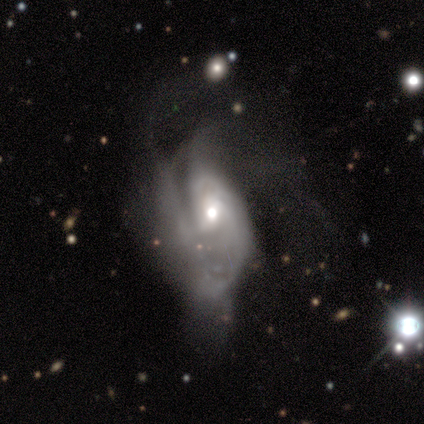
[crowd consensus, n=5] Smooth or featured? 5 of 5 (100%) said featured or disk. Edge-on disk? 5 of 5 (100%) said no. Bar? 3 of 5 (60%) said no. Spiral arms? 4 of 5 (80%) said yes. Spiral winding? 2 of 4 (50%) said medium. Spiral arm count? 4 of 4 (100%) said can't tell. Bulge size? 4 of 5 (80%) said moderate. Merging? 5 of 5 (100%) said major disturbance.